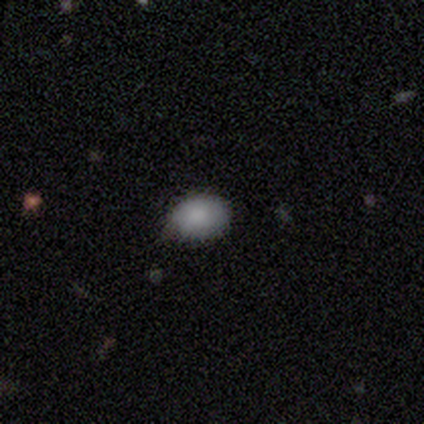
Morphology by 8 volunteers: Q: Smooth or featured?
A: smooth (88%); runner-up: star or artifact (12%)
Q: How rounded?
A: in between (57%); runner-up: round (43%)
Q: Merging?
A: none (71%); runner-up: minor disturbance (29%)